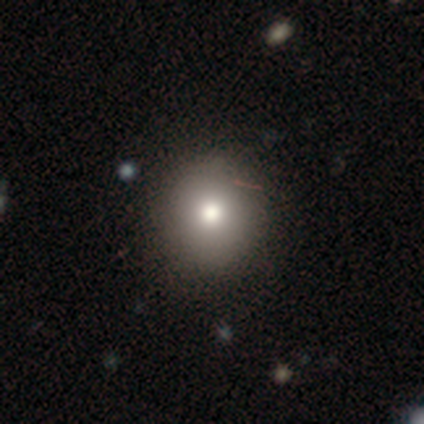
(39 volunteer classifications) Smooth or featured?
  - smooth: 69% *
  - featured or disk: 15%
  - star or artifact: 15%
How rounded?
  - round: 93% *
  - in between: 4%
  - cigar-shaped: 4%
Merging?
  - none: 82% *
  - minor disturbance: 15%
  - merger: 3%
  - major disturbance: 0%